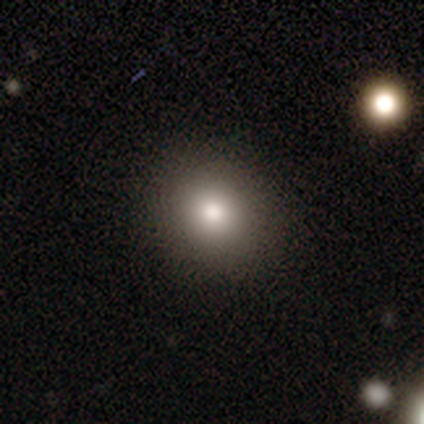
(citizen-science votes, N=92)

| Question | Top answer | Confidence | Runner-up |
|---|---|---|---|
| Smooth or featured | smooth | 77% | featured or disk (12%) |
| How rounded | round | 73% | in between (27%) |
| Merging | none | 89% | minor disturbance (9%) |